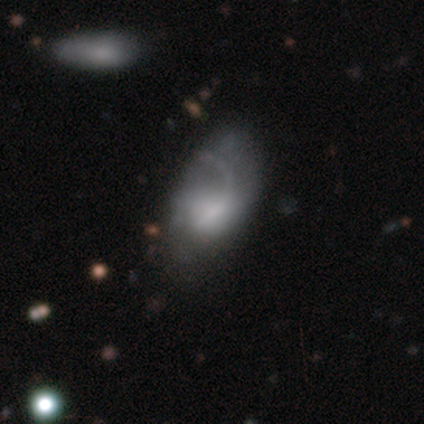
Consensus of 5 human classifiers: Smooth or featured? smooth (60%)
How rounded? in between (100%)
Merging? none (40%, tied with minor disturbance)